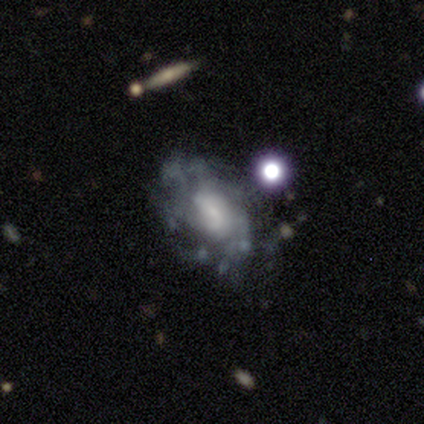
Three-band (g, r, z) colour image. It shows a featured or disk galaxy (60%) with a weak bar (67%), no spiral arms (67%) and a large central bulge (33%, tied with moderate and small). Merging: none (75%).